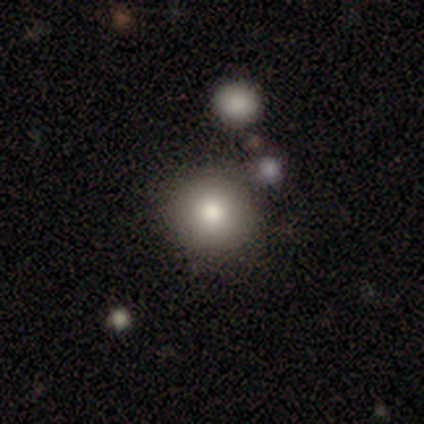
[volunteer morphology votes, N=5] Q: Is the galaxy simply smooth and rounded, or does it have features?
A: smooth — 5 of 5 (100%).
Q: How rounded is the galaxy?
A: round — 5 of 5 (100%).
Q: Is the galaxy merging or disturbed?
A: none — 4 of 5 (80%).